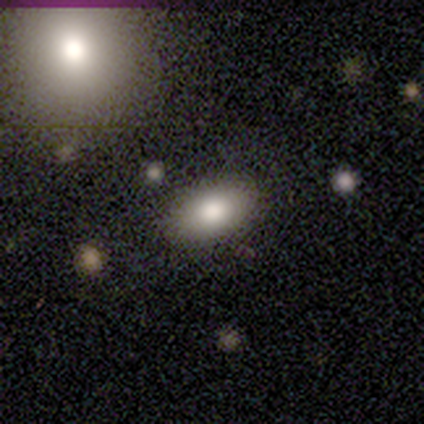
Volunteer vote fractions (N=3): A smooth galaxy with no disk features (100%) that is in between round and cigar-shaped (100%). Merging: none (67%).